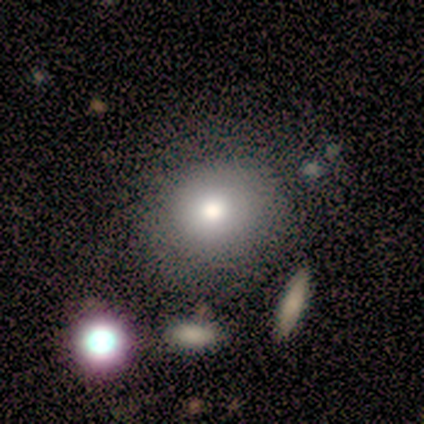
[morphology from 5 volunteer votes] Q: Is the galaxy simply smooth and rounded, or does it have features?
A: smooth — 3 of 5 (60%).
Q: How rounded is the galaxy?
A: round — 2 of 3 (67%).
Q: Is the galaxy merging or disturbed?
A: none — 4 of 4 (100%).